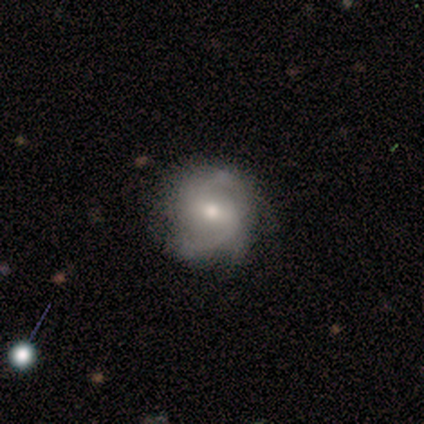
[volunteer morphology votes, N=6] Smooth or featured? featured or disk (67%)
Edge-on disk? no (100%)
Bar? strong (50%)
Spiral arms? yes (100%)
Spiral winding? loose (75%)
Spiral arm count? 2 (100%)
Bulge size? moderate (75%)
Merging? none (80%)